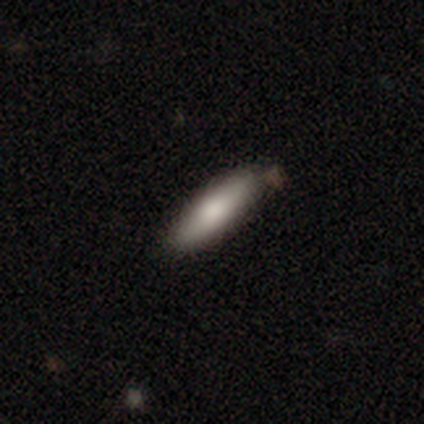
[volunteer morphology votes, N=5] This is likely a smooth galaxy (60%). How rounded: likely cigar-shaped (67%). Merging: likely none (60%).